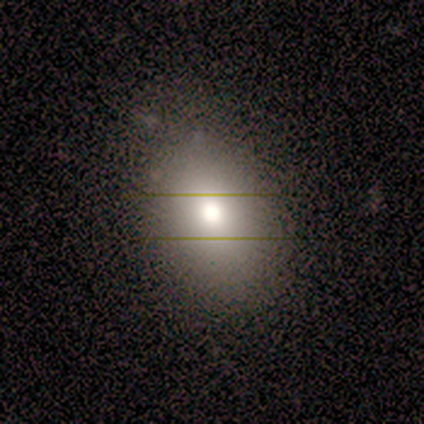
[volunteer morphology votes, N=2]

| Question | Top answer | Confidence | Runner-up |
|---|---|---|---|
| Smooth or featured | smooth | 50% | tied: star or artifact (50%) |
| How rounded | in between | 100% | — |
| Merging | none | 100% | — |